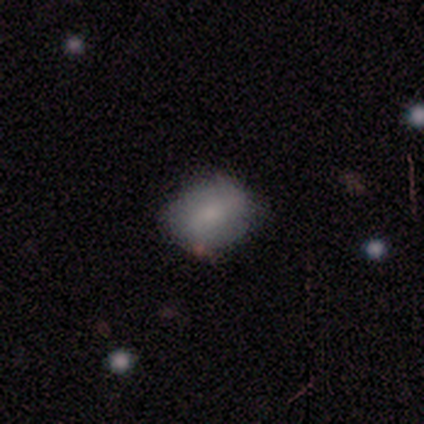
This appears to be a smooth galaxy with no disk features (60%) that is in between round and cigar-shaped (100%). Merging: minor disturbance (75%).